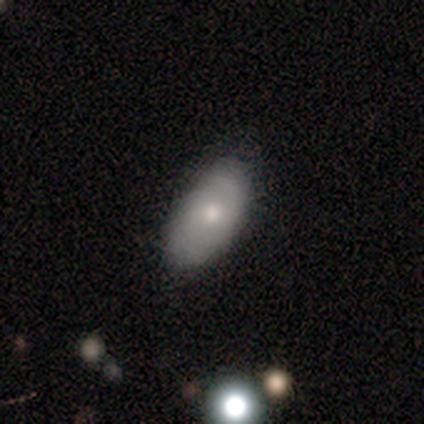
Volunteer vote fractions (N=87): This appears to be a smooth galaxy with no disk features (60%) that is in between round and cigar-shaped (98%). Merging: none (76%).